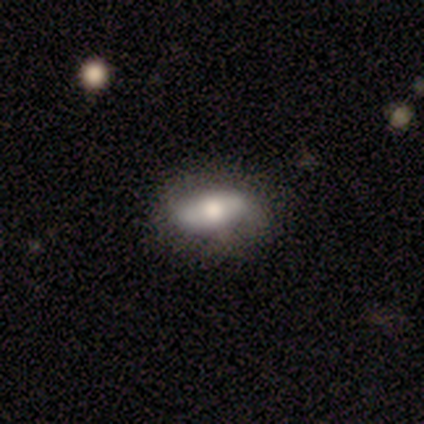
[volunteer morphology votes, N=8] This is likely a smooth galaxy (75%). How rounded: clearly in between (100%). Merging: clearly none (86%).